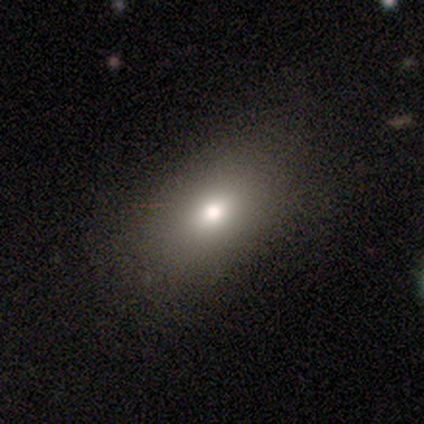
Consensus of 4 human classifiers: Volunteers were most divided on "smooth or featured" (2-way tie): smooth: 50%, featured or disk: 50%, star or artifact: 0%. More confident: how rounded — in between (100%); merging — minor disturbance (75%).